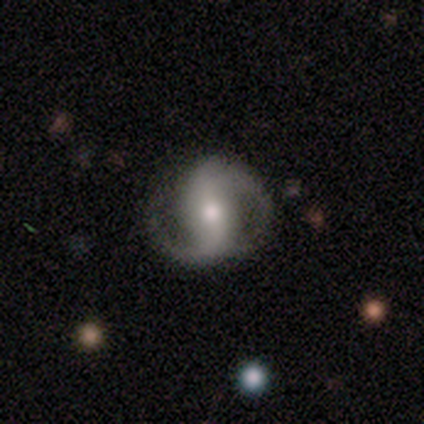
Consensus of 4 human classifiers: Smooth or featured: featured or disk — 100%
Edge-on disk: no — 100%
Bar: strong — 100%
Spiral arms: yes — 100%
Spiral winding: medium — 75% (tight — 25%)
Spiral arm count: 2 — 100%
Bulge size: moderate — 50% (large — 25%)
Merging: none — 75% (minor disturbance — 25%)